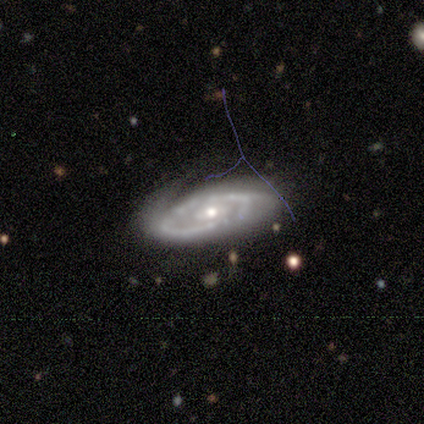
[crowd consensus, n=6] This is clearly a featured or disk galaxy (100%). It is clearly not viewed edge-on (100%). Bar: clearly no (83%). Spiral arm pattern: likely yes (67%). Spiral arm count: likely can't tell (75%). Spiral winding: possibly medium (50%). Central bulge: clearly small (83%). Merging: likely none (67%).